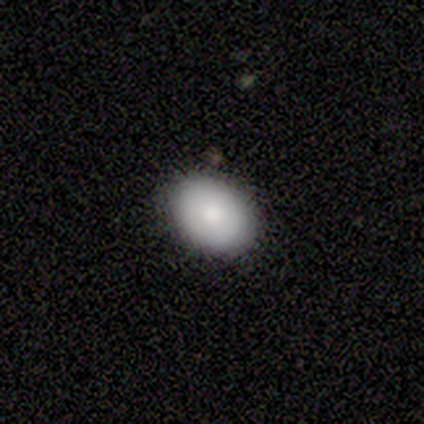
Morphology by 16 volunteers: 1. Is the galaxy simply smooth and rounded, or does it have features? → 75% smooth, 19% featured or disk, 6% star or artifact.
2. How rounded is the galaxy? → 67% in between, 33% round, 0% cigar-shaped.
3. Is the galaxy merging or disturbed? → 73% none, 13% major disturbance, 7% minor disturbance, 7% merger.